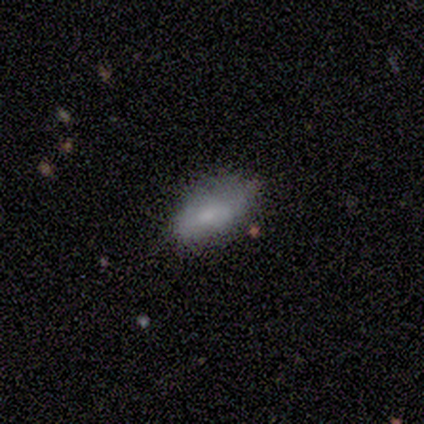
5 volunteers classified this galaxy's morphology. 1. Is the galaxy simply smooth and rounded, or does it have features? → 80% smooth, 20% featured or disk, 0% star or artifact.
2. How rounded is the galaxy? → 100% in between, 0% round, 0% cigar-shaped.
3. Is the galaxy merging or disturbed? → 100% none, 0% minor disturbance, 0% major disturbance, 0% merger.